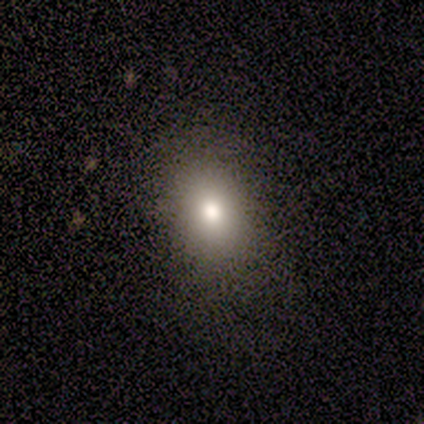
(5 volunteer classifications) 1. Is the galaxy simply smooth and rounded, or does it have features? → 80% smooth, 20% star or artifact, 0% featured or disk.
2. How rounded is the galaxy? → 75% in between, 25% round, 0% cigar-shaped.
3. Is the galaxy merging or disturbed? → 50% none (tied), 50% minor disturbance (tied), 0% major disturbance, 0% merger.